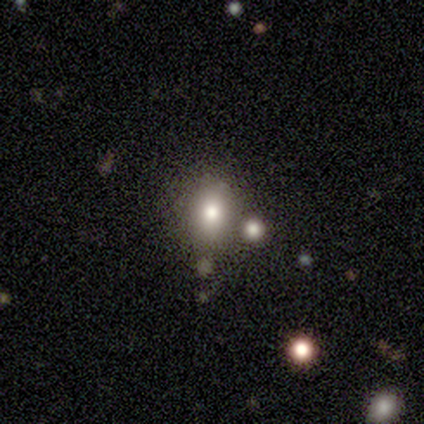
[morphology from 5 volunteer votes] type=smooth (80%); roundness=in between (75%); merging=minor disturbance (75%).